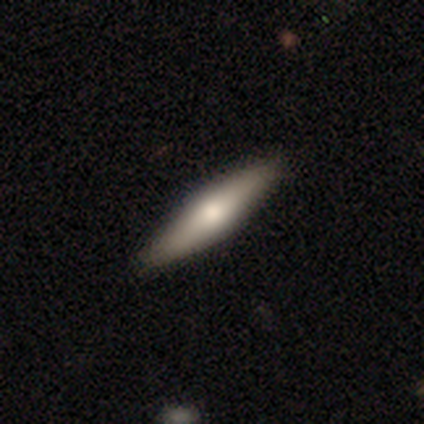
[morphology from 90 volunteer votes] Volunteers were most divided on "smooth or featured": smooth: 52%, featured or disk: 46%, star or artifact: 2%. More confident: merging — none (85%); how rounded — cigar-shaped (77%).